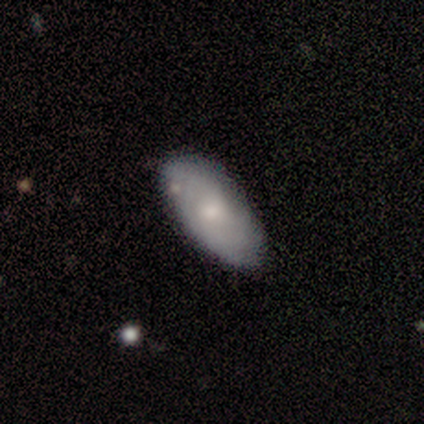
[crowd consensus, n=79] Smooth or featured?
  - smooth: 53% *
  - featured or disk: 43%
  - star or artifact: 4%
How rounded?
  - in between: 93% *
  - cigar-shaped: 5%
  - round: 2%
Merging?
  - none: 39% *
  - minor disturbance: 11%
  - merger: 5%
  - major disturbance: 1%